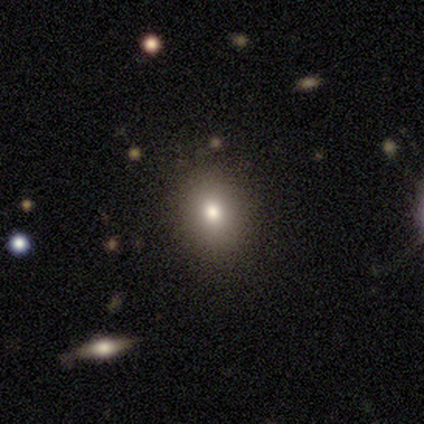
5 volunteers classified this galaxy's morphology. Q: Smooth or featured?
A: featured or disk (60%); runner-up: smooth (40%)
Q: Edge-on disk?
A: no (100%)
Q: Bar?
A: no (100%)
Q: Spiral arms?
A: no (100%)
Q: Bulge size?
A: moderate (100%)
Q: Merging?
A: none (80%); runner-up: minor disturbance (20%)